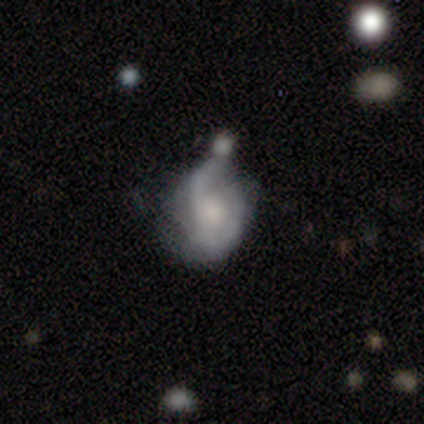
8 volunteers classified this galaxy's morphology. A featured or disk galaxy (75%) with no bar (83%), 2 (50%) tight (50%, tied with medium) spiral arms (100%) and a moderate central bulge (50%).

Vote fractions:
- Smooth or featured? featured or disk: 75% / smooth: 25% / star or artifact: 0%
- Edge-on disk? no: 100% / yes: 0%
- Bar? no: 83% / weak: 17% / strong: 0%
- Spiral arms? yes: 100% / no: 0%
- Spiral winding? tight: 50% (tied) / medium: 50% (tied) / loose: 0%
- Spiral arm count? 2: 50% / can't tell: 33% / 1: 17% / 3: 0% / 4: 0% / more than 4: 0%
- Bulge size? moderate: 50% / small: 33% / none: 17% / dominant: 0% / large: 0%
- Merging? none: 50% / minor disturbance: 25% / major disturbance: 12% / merger: 12%